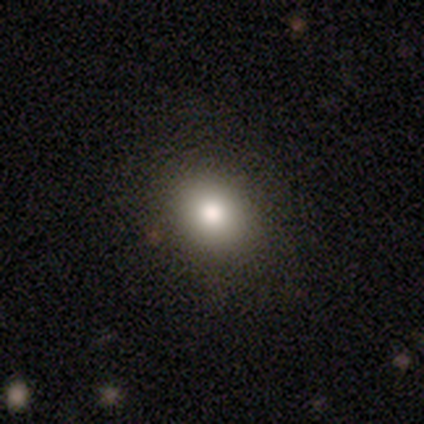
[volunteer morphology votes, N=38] smooth_or_featured: smooth (p=0.74) [alt: star or artifact p=0.16]
how_rounded: round (p=0.68) [alt: in between p=0.32]
merging: none (p=0.72) [alt: minor disturbance p=0.06]